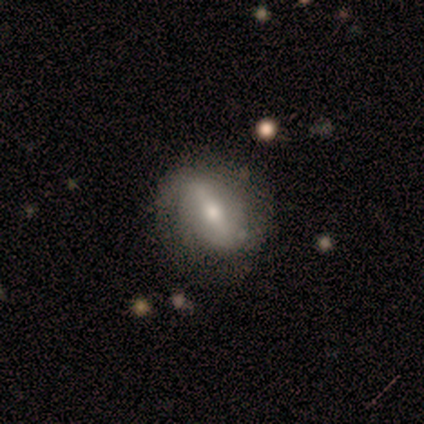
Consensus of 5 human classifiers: Volunteers were most divided on "merging" (2-way tie): none: 50%, minor disturbance: 50%, major disturbance: 0%, merger: 0%. More confident: edge-on disk — no (100%); bar — strong (67%); spiral arms — no (67%); bulge size — moderate (67%); smooth or featured — featured or disk (60%).